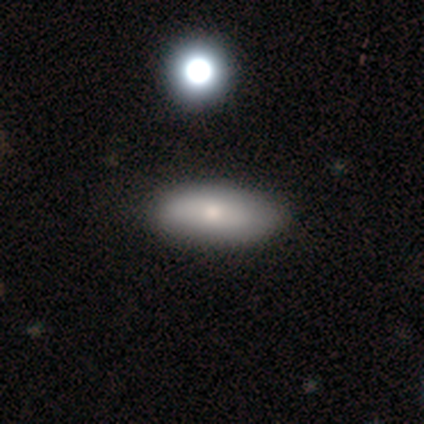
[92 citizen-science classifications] A smooth galaxy with no disk features (70%) that is in between round and cigar-shaped (83%).

Vote fractions:
- Smooth or featured? smooth: 70% / featured or disk: 18% / star or artifact: 12%
- How rounded? in between: 83% / cigar-shaped: 16% / round: 2%
- Merging? none: 84% / minor disturbance: 11% / major disturbance: 5% / merger: 0%